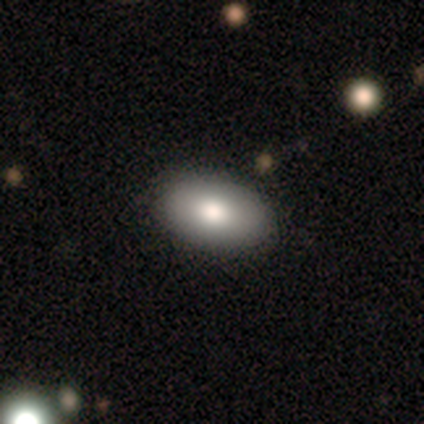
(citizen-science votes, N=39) This is likely a smooth galaxy (72%). How rounded: clearly in between (96%). Merging: likely none (71%).